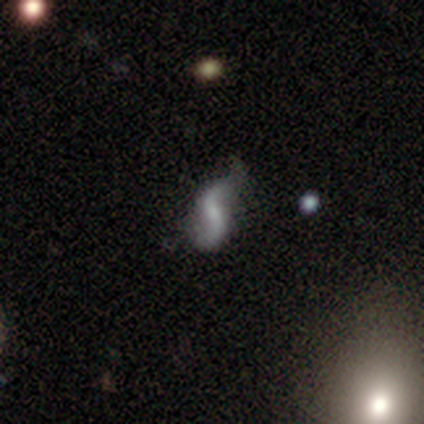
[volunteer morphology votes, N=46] A featured or disk galaxy (80%) with a weak bar (49%), 2 (97%) loose (91%) spiral arms (91%) and a small central bulge (40%). Merging: none (46%).